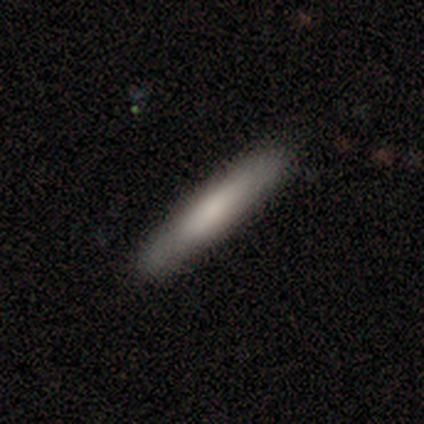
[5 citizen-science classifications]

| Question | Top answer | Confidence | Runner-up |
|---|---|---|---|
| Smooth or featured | smooth | 100% | — |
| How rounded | cigar-shaped | 100% | — |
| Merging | none | 100% | — |